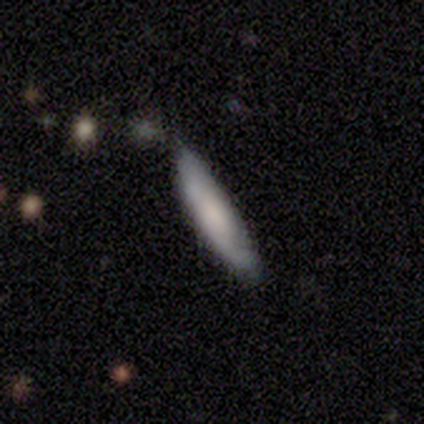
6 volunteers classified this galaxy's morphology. Smooth or featured: smooth — 100%
How rounded: cigar-shaped — 67% (round — 17%)
Merging: none — 83% (minor disturbance — 17%)